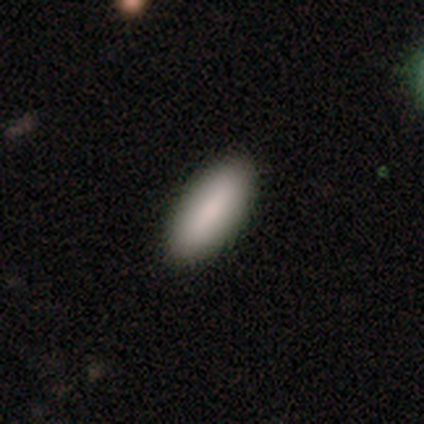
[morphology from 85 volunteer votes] smooth-or-featured: smooth: 88% | featured or disk: 7% | star or artifact: 5%
  how-rounded: in between: 73% | cigar-shaped: 27% | round: 0%
  merging: none: 95% | minor disturbance: 5% | major disturbance: 0% | merger: 0%